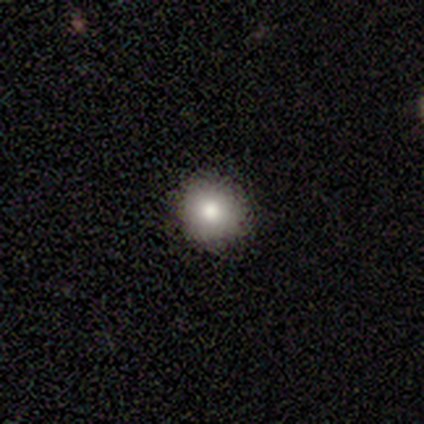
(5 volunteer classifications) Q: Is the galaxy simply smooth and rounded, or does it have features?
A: smooth — 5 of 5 (100%).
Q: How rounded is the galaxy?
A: round — 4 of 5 (80%).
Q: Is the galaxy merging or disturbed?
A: none — 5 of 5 (100%).